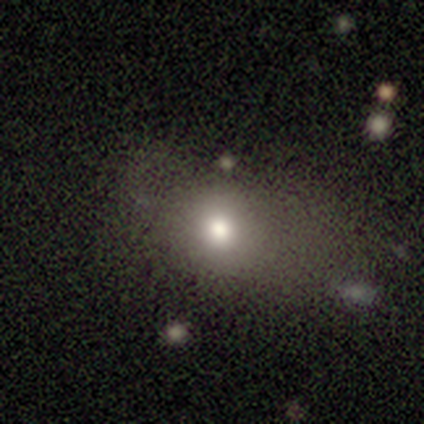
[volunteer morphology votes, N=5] Smooth or featured? 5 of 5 (100%) said smooth. How rounded? 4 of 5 (80%) said in between. Merging? 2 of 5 (40%, tied with minor disturbance) said none.